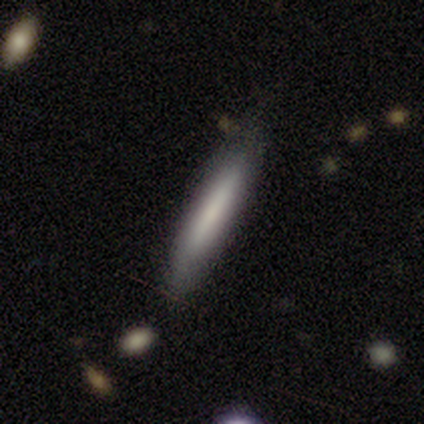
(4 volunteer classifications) Overall: smooth (75%). How rounded: cigar-shaped (100%). Merging: none (100%).